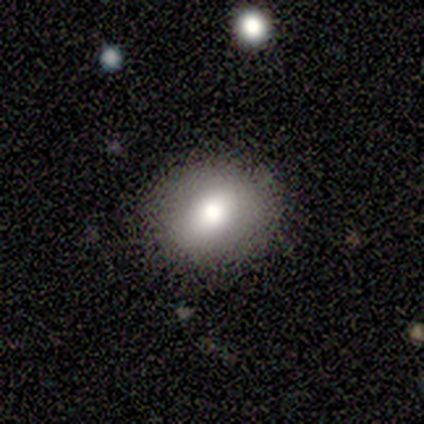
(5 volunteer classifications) smooth-or-featured: smooth: 60% | featured or disk: 20% | star or artifact: 20%
  how-rounded: round: 100% | in between: 0% | cigar-shaped: 0%
  merging: none: 75% | major disturbance: 25% | minor disturbance: 0% | merger: 0%